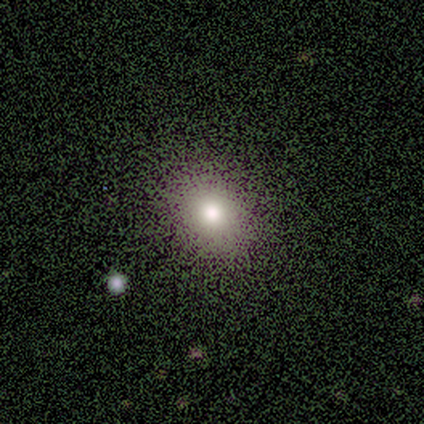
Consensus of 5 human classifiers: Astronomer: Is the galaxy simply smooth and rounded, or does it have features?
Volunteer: smooth — 80%.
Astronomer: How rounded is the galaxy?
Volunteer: in between — 100%.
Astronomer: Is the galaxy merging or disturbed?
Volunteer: none — 100%.